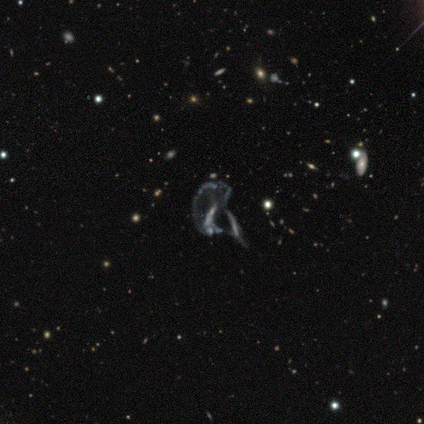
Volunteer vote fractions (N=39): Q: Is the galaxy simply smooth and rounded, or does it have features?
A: featured or disk — 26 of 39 (67%).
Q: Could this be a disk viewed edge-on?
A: no — 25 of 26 (96%).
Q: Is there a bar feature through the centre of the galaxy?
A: no — 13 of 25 (52%).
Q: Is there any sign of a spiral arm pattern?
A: no — 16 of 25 (64%).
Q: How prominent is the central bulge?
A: none — 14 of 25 (56%).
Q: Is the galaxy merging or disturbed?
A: major disturbance — 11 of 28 (39%).